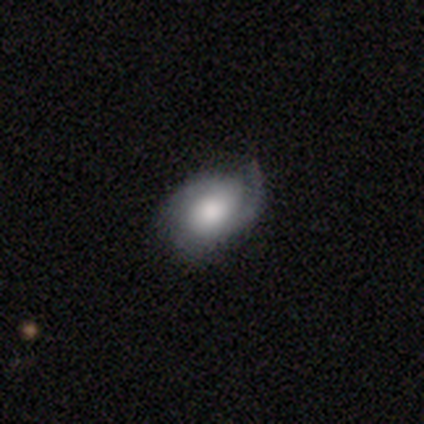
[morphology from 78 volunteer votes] Smooth or featured: featured or disk — 68% (smooth — 24%)
Edge-on disk: no — 94% (yes — 6%)
Bar: no — 78% (weak — 16%)
Spiral arms: yes — 90% (no — 10%)
Spiral winding: tight — 40% (medium — 38%)
Spiral arm count: 2 — 47% (1 — 24%)
Bulge size: moderate — 46% (large — 42%)
Merging: none — 39% (minor disturbance — 17%)